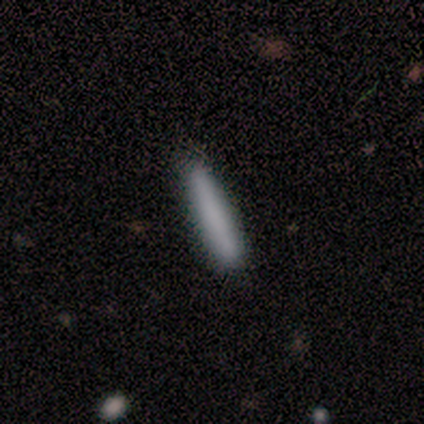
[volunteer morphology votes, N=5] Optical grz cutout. It shows a smooth galaxy with no disk features (80%) that is cigar-shaped (100%). Merging: none (100%).